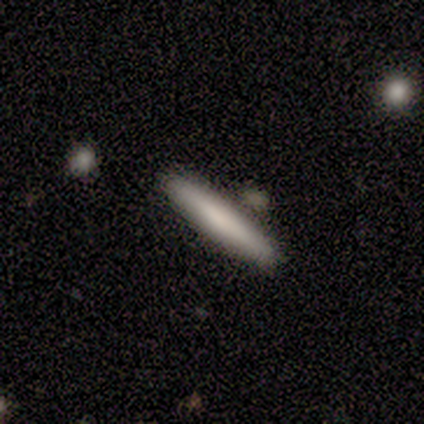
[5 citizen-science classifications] Overall: smooth (100%). How rounded: cigar-shaped (100%). Merging: none (80%).